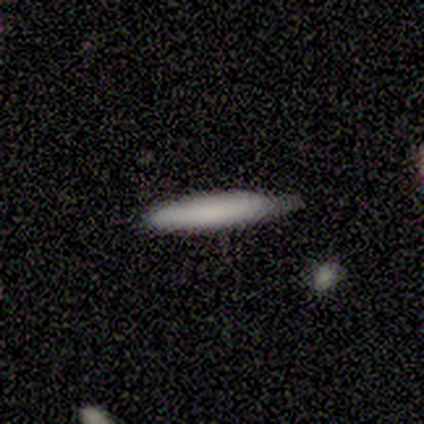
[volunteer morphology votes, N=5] smooth_or_featured: smooth (p=0.60) [alt: featured or disk p=0.40]
how_rounded: cigar-shaped (p=0.67) [alt: in between p=0.33]
merging: none (p=0.80) [alt: minor disturbance p=0.20]